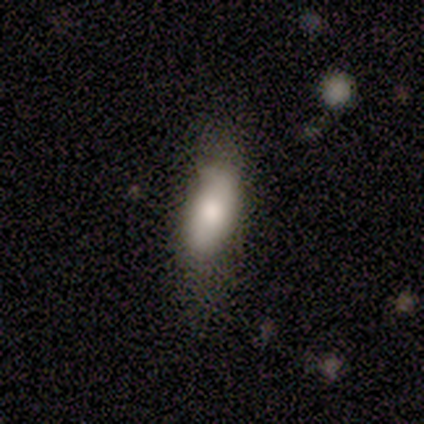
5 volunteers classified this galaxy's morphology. Smooth or featured: smooth — 80% (featured or disk — 20%)
How rounded: in between — 100%
Merging: none — 60% (minor disturbance — 40%)